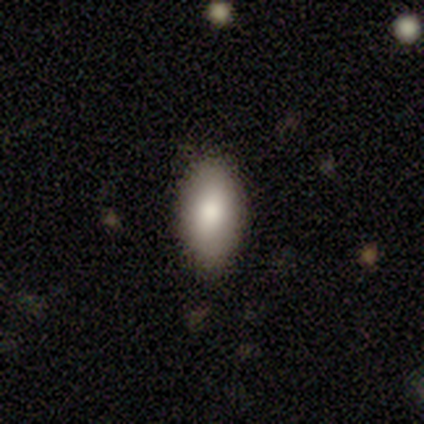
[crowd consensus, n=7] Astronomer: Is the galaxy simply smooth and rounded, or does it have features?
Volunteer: smooth — 86%.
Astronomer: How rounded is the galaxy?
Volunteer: in between — 83%.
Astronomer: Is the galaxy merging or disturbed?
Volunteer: none — 71%.